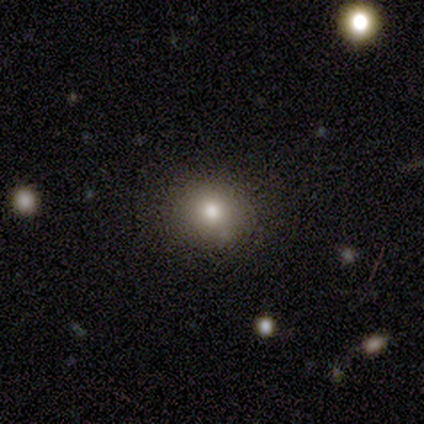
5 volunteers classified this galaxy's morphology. A smooth galaxy with no disk features (100%) that is round (100%).

Vote fractions:
- Smooth or featured? smooth: 100% / featured or disk: 0% / star or artifact: 0%
- How rounded? round: 100% / in between: 0% / cigar-shaped: 0%
- Merging? none: 100% / minor disturbance: 0% / major disturbance: 0% / merger: 0%